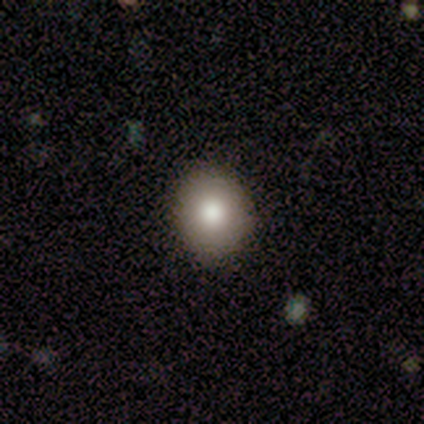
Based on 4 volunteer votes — Smooth or featured? smooth (100%)
How rounded? round (50%, tied with in between)
Merging? none (100%)